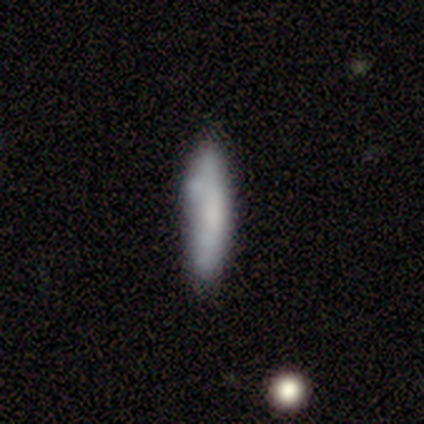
Smooth or featured? 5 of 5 (100%) said smooth. How rounded? 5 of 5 (100%) said cigar-shaped. Merging? 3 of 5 (60%) said none.